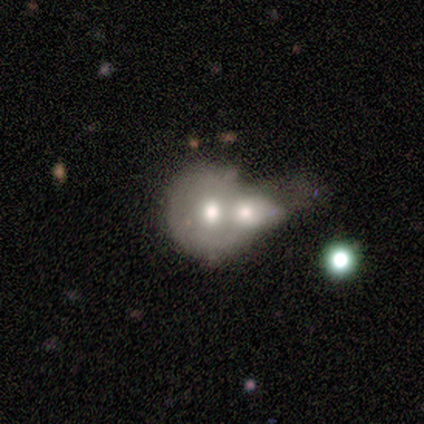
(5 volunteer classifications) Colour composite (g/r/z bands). It shows a smooth galaxy with no disk features (60%) that is round (67%). Merging: merger (100%).